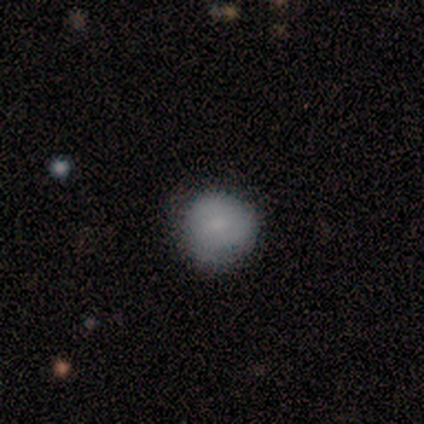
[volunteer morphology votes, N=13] Smooth or featured?
  - smooth: 77% *
  - featured or disk: 23%
  - star or artifact: 0%
How rounded?
  - round: 100% *
  - in between: 0%
  - cigar-shaped: 0%
Merging?
  - none: 77% *
  - minor disturbance: 23%
  - major disturbance: 0%
  - merger: 0%